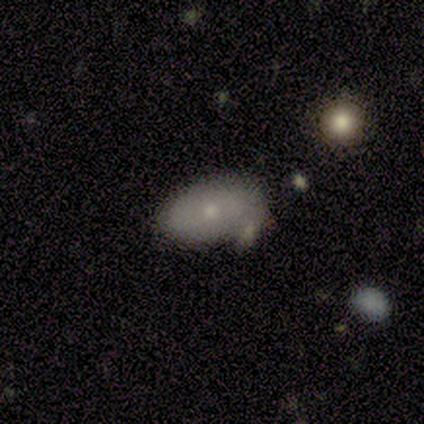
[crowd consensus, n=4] This appears to be a smooth galaxy with no disk features (50%) that is in between round and cigar-shaped (100%). Merging: minor disturbance (67%).